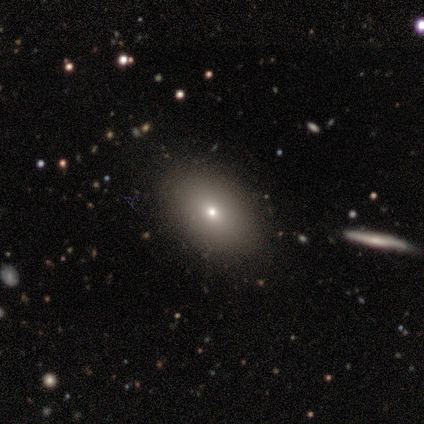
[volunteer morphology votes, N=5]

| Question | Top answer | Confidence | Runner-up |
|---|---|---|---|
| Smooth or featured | smooth | 60% | star or artifact (40%) |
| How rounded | in between | 100% | — |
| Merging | none | 100% | — |